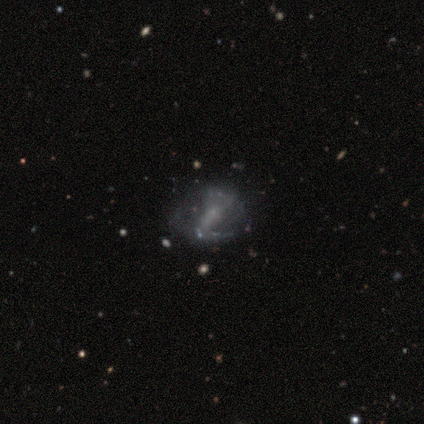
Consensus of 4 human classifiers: Q: Smooth or featured?
A: featured or disk (75%); runner-up: star or artifact (25%)
Q: Edge-on disk?
A: no (100%)
Q: Bar?
A: strong (67%); runner-up: weak (33%)
Q: Spiral arms?
A: yes (100%)
Q: Spiral winding?
A: tight (33%); tied with: medium (33%); loose (33%)
Q: Spiral arm count?
A: 2 (100%)
Q: Bulge size?
A: small (100%)
Q: Merging?
A: none (33%); tied with: minor disturbance (33%); major disturbance (33%)